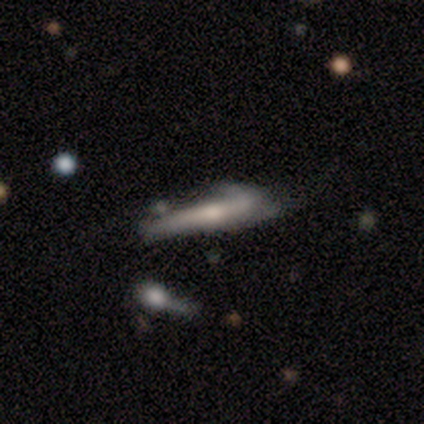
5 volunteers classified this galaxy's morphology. smooth 60%, featured or disk 40%, star or artifact 0%. Down the decision tree: how rounded — cigar-shaped (100%); merging — minor disturbance (80%).